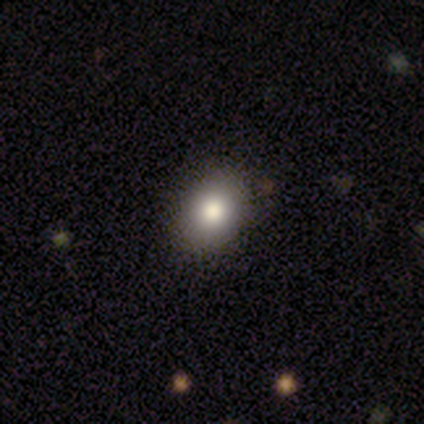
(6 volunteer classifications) This is likely a smooth galaxy (67%). How rounded: likely in between (75%). Merging: clearly none (80%).